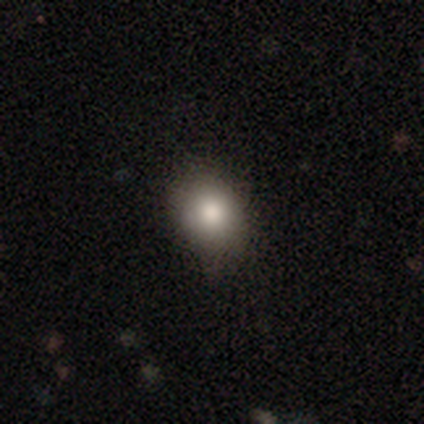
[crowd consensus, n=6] Smooth or featured?
  - smooth: 83% *
  - star or artifact: 17%
  - featured or disk: 0%
How rounded?
  - in between: 60% *
  - round: 40%
  - cigar-shaped: 0%
Merging?
  - none: 80% *
  - major disturbance: 20%
  - minor disturbance: 0%
  - merger: 0%